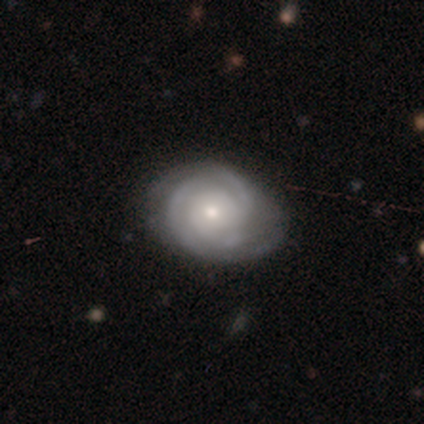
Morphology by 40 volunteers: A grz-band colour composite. It shows a featured or disk galaxy (85%) with no bar (76%), tight (66%) spiral arms (94%) and a small central bulge (59%). Merging: none (82%).